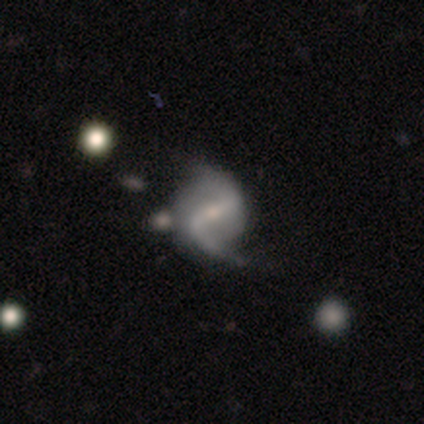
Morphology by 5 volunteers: featured or disk 100%, smooth 0%, star or artifact 0%. Down the decision tree: edge-on disk — no (100%); bar — strong (80%); spiral arms — yes (100%); spiral arm count — 2 (100%); spiral winding — loose (100%); bulge size — small (80%); merging — none (100%).